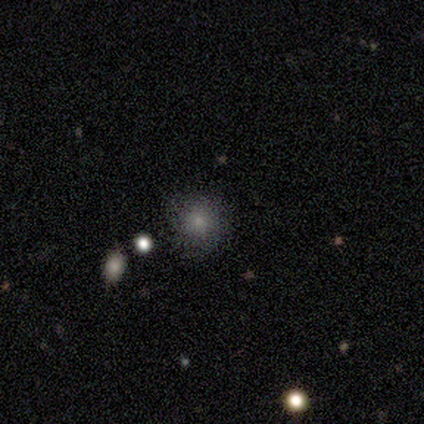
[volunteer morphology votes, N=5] smooth-or-featured: smooth: 60% | star or artifact: 40% | featured or disk: 0%
  how-rounded: round: 67% | in between: 33% | cigar-shaped: 0%
  merging: minor disturbance: 100% | none: 0% | major disturbance: 0% | merger: 0%